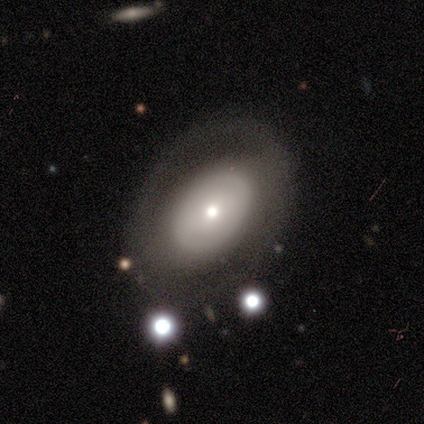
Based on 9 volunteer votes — smooth 44% (tied), featured or disk 44% (tied), star or artifact 11%. Down the decision tree: how rounded — in between (75%); merging — none (50%).